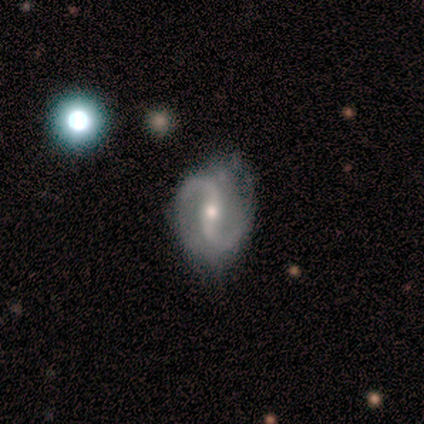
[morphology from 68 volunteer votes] featured or disk 88%, smooth 7%, star or artifact 4%. Down the decision tree: edge-on disk — no (97%); bar — strong (40%); spiral arms — yes (98%); spiral arm count — 2 (95%); spiral winding — loose (54%); bulge size — moderate (57%); merging — none (52%).